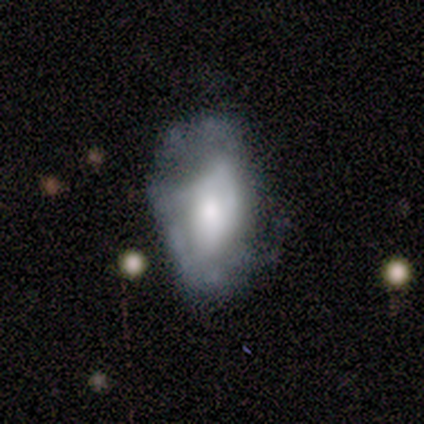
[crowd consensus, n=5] Smooth or featured?
  - smooth: 60% *
  - featured or disk: 40%
  - star or artifact: 0%
How rounded?
  - in between: 100% *
  - round: 0%
  - cigar-shaped: 0%
Merging?
  - none: 60% *
  - minor disturbance: 40%
  - major disturbance: 0%
  - merger: 0%